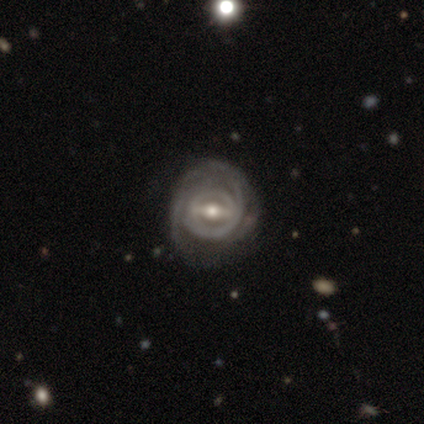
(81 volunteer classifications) A featured or disk galaxy (91%) with a strong bar (64%), 2 (48%) tight (75%) spiral arms (88%) and a moderate central bulge (71%).

Vote fractions:
- Smooth or featured? featured or disk: 91% / smooth: 7% / star or artifact: 1%
- Edge-on disk? no: 97% / yes: 3%
- Bar? strong: 64% / weak: 32% / no: 4%
- Spiral arms? yes: 88% / no: 12%
- Spiral winding? tight: 75% / medium: 24% / loose: 2%
- Spiral arm count? 2: 48% / can't tell: 29% / 3: 11% / 1: 10% / 4: 3% / more than 4: 0%
- Bulge size? moderate: 71% / small: 17% / large: 11% / none: 1% / dominant: 0%
- Merging? none: 28% / minor disturbance: 14% / major disturbance: 10% / merger: 0%